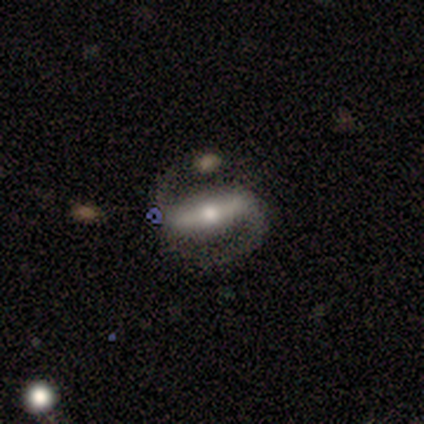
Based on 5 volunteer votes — Volunteers were most divided on "spiral winding" (2-way tie): medium: 50%, loose: 50%, tight: 0%. More confident: smooth or featured — featured or disk (100%); spiral arm count — 2 (100%); merging — none (80%); bar — strong (67%); spiral arms — yes (67%); bulge size — moderate (67%); edge-on disk — no (60%).